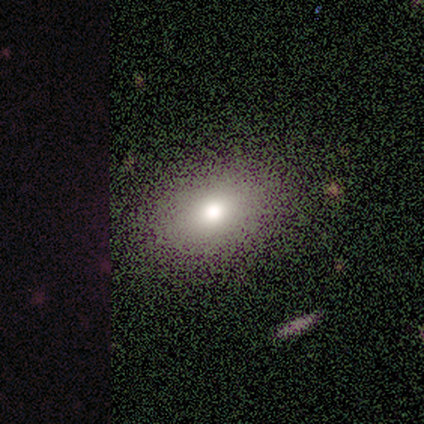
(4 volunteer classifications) Smooth or featured?
  - smooth: 75% *
  - featured or disk: 25%
  - star or artifact: 0%
How rounded?
  - in between: 100% *
  - round: 0%
  - cigar-shaped: 0%
Merging?
  - none: 100% *
  - minor disturbance: 0%
  - major disturbance: 0%
  - merger: 0%